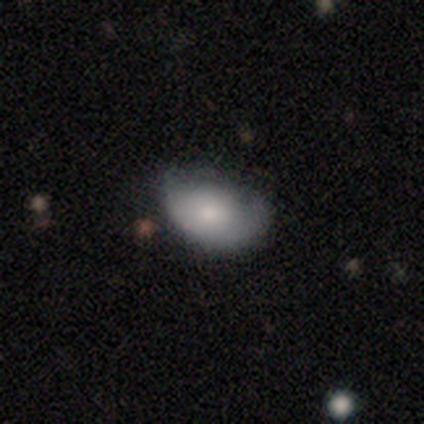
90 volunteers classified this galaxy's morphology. smooth_or_featured: smooth (p=0.73) [alt: featured or disk p=0.17]
how_rounded: in between (p=0.89) [alt: round p=0.09]
merging: minor disturbance (p=0.46) [alt: none p=0.40]